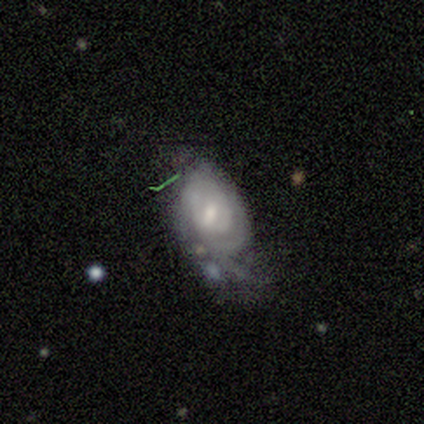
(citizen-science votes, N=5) smooth_or_featured: featured or disk (p=0.60) [alt: smooth p=0.20]
disk_edge_on: no (p=1.00)
bar: weak (p=0.67) [alt: strong p=0.33]
has_spiral_arms: yes (p=1.00)
spiral_winding: loose (p=0.67) [alt: tight p=0.33]
spiral_arm_count: can't tell (p=0.67) [alt: 2 p=0.33]
bulge_size: moderate (p=0.33) [tied with: small p=0.33, none p=0.33]
merging: major disturbance (p=0.50) [alt: none p=0.25]